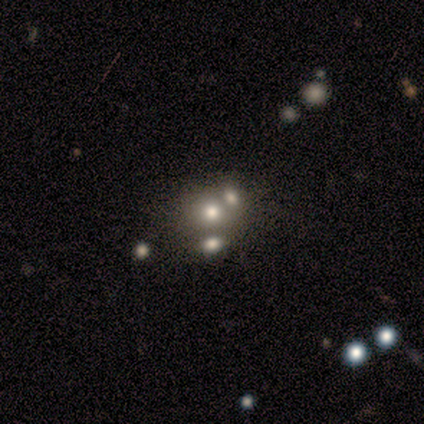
smooth 86%, featured or disk 14%, star or artifact 0%. Down the decision tree: how rounded — round (100%); merging — merger (57%).